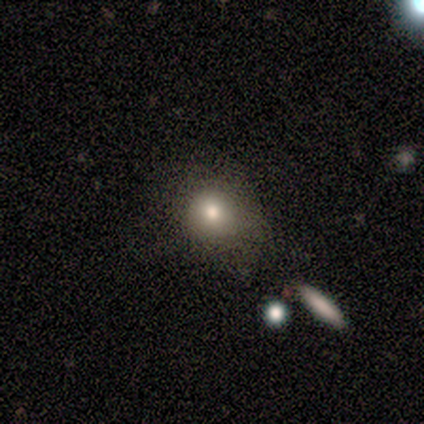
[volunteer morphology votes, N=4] This is likely a smooth galaxy (75%). How rounded: likely round (67%). Merging: likely none (75%).